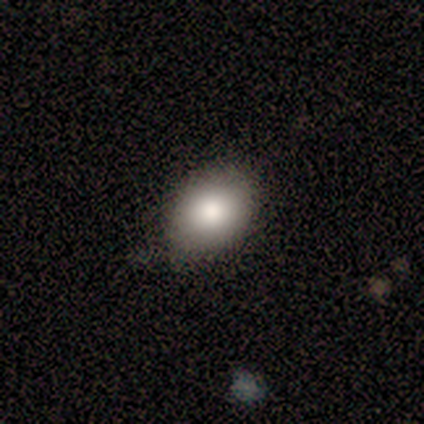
smooth-or-featured: smooth: 80% | star or artifact: 20% | featured or disk: 0%
  how-rounded: in between: 75% | cigar-shaped: 25% | round: 0%
  merging: none: 50% (tied) | minor disturbance: 50% (tied) | major disturbance: 0% | merger: 0%